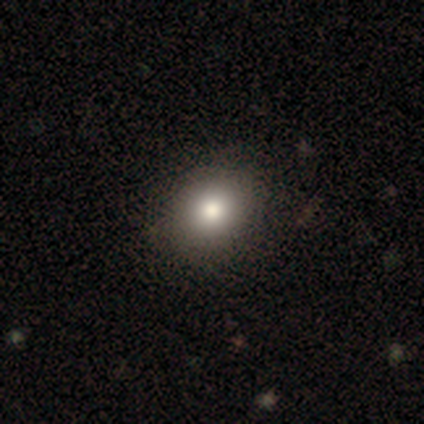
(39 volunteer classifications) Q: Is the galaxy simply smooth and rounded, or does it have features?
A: smooth — 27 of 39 (69%).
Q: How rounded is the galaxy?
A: in between — 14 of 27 (52%).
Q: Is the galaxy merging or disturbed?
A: none — 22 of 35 (63%).